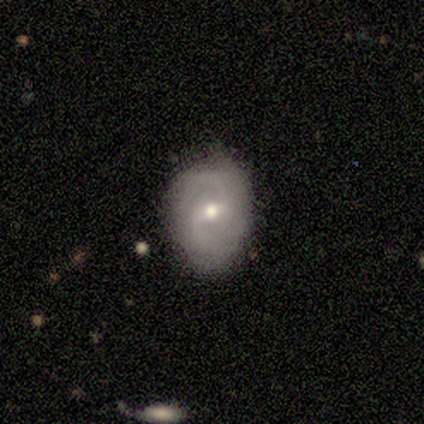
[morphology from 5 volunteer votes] Volunteers were most divided on "spiral winding" (2-way tie): medium: 50%, loose: 50%, tight: 0%. More confident: smooth or featured — featured or disk (100%); edge-on disk — no (100%); spiral arm count — 2 (100%); spiral arms — yes (80%); bulge size — moderate (80%); bar — no (60%); merging — none (60%).